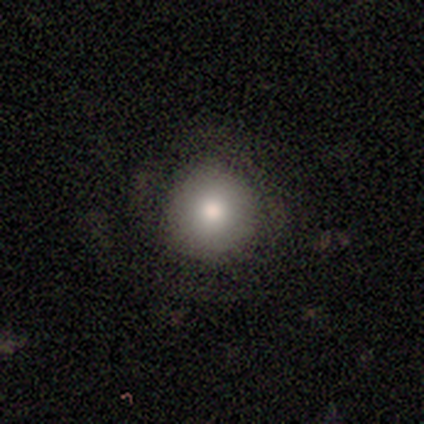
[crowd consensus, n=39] A smooth galaxy with no disk features (79%) that is round (94%).

Vote fractions:
- Smooth or featured? smooth: 79% / featured or disk: 10% / star or artifact: 10%
- How rounded? round: 94% / in between: 6% / cigar-shaped: 0%
- Merging? none: 77% / minor disturbance: 14% / major disturbance: 9% / merger: 0%